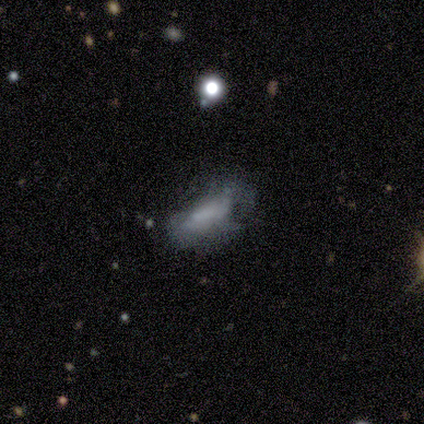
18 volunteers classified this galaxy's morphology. This appears to be a smooth galaxy with no disk features (56%) that is in between round and cigar-shaped (50%). Merging: major disturbance (47%).